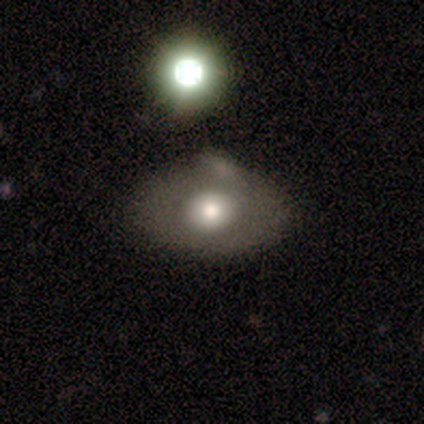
Volunteers were most divided on "how rounded": round: 67%, in between: 33%, cigar-shaped: 0%. More confident: merging — none (75%); smooth or featured — smooth (60%).